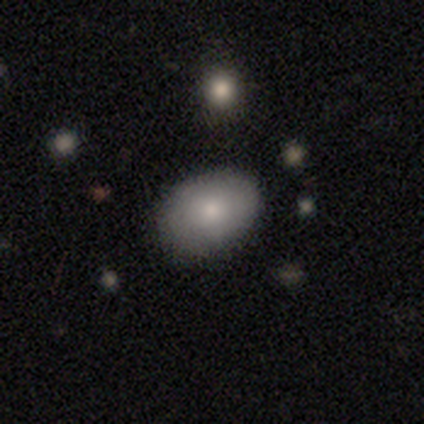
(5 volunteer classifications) This appears to be a smooth galaxy with no disk features (100%) that is in between round and cigar-shaped (100%). Merging: none (80%).